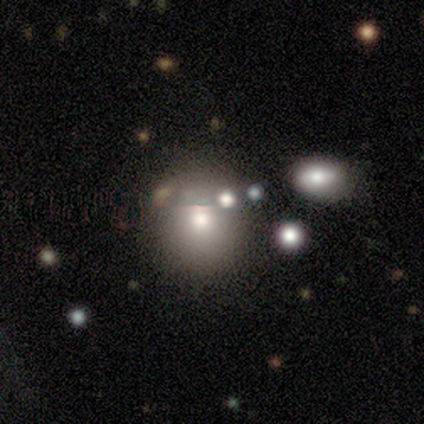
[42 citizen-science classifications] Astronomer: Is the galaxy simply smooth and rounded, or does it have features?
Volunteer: smooth — 74%.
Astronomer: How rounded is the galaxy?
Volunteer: round — 84%.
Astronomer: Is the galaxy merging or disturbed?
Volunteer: none — 78%.